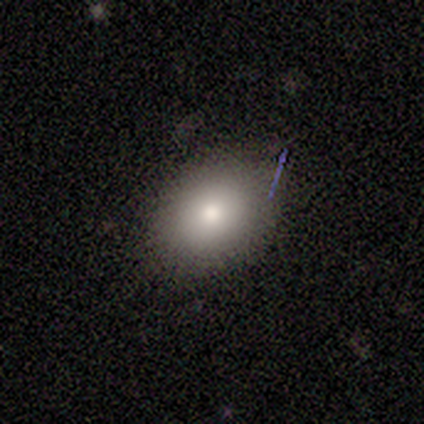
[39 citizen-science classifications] Overall: smooth (85%). How rounded: round (52%; in between 48%). Merging: none (89%).